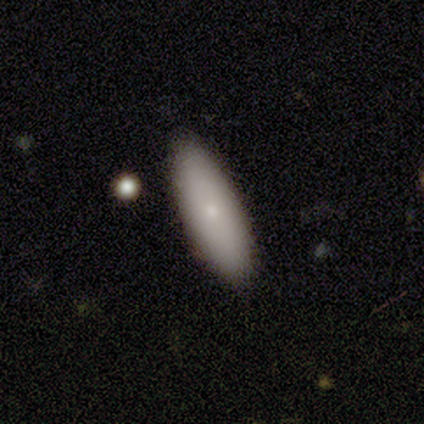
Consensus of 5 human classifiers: smooth_or_featured: featured or disk (p=0.60) [alt: smooth p=0.40]
disk_edge_on: no (p=0.67) [alt: yes p=0.33]
bar: no (p=1.00)
has_spiral_arms: no (p=1.00)
bulge_size: small (p=1.00)
merging: none (p=0.80) [alt: minor disturbance p=0.20]